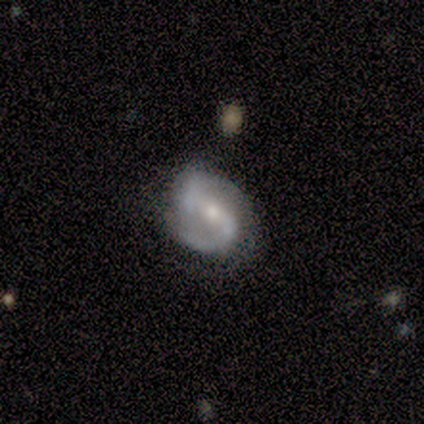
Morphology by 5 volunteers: A featured or disk galaxy (100%) with a strong bar (80%), 2 (100%) medium (60%) spiral arms (100%) and a moderate central bulge (60%). Merging: none (60%).